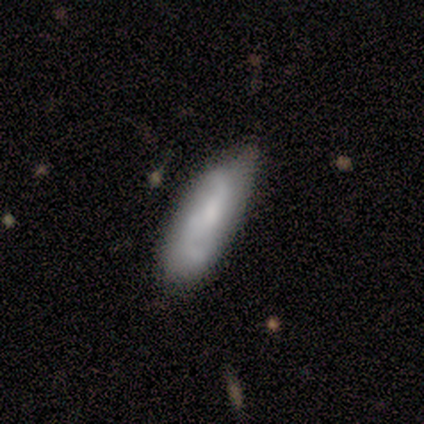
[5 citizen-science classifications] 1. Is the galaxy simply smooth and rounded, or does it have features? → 80% featured or disk, 20% smooth, 0% star or artifact.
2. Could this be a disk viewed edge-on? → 100% no, 0% yes.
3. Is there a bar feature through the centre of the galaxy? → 75% no, 25% weak, 0% strong.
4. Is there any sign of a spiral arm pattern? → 75% yes, 25% no.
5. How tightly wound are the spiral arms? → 67% loose, 33% medium, 0% tight.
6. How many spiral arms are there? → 100% 2, 0% 1, 0% 3, 0% 4, 0% more than 4, 0% can't tell.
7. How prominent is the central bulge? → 75% none, 25% small, 0% dominant, 0% large, 0% moderate.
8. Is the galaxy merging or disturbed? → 60% minor disturbance, 40% none, 0% major disturbance, 0% merger.